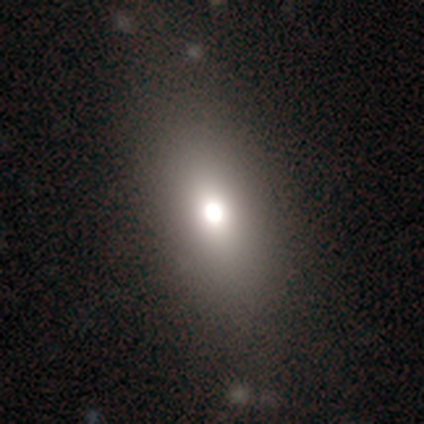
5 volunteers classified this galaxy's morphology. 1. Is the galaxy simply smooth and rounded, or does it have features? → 100% smooth, 0% featured or disk, 0% star or artifact.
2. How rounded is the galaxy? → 80% in between, 20% round, 0% cigar-shaped.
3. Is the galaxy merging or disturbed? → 80% none, 20% minor disturbance, 0% major disturbance, 0% merger.